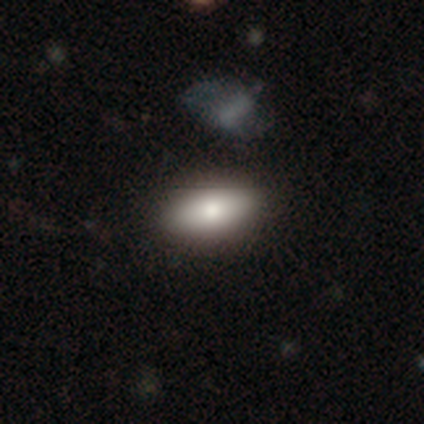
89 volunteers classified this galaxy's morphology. This is clearly a smooth galaxy (90%). How rounded: clearly in between (89%). Merging: clearly none (85%).